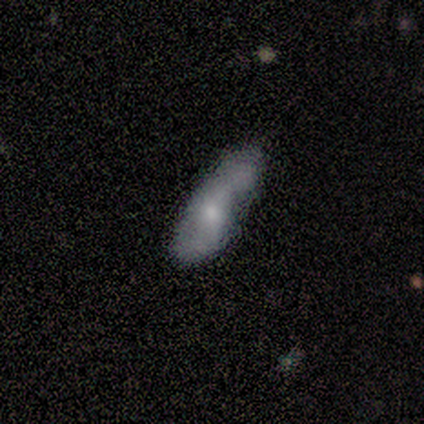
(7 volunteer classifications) This appears to be a featured or disk galaxy (57%) with no bar (100%), 2 (67%) tight (67%) spiral arms (75%) and no central bulge (50%). Merging: none (43%, tied with minor disturbance).